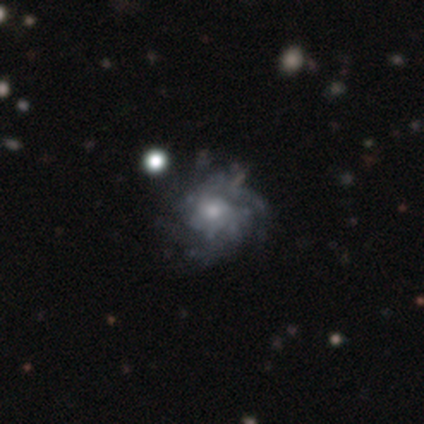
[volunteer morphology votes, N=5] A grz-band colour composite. It shows a featured or disk galaxy (80%) with no bar (100%), tight (50%, tied with medium) spiral arms (67%) and a moderate central bulge (67%). Merging: none (100%).